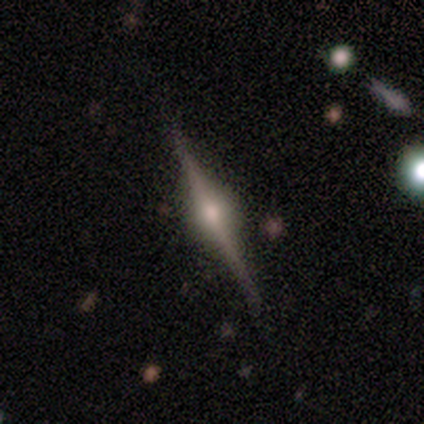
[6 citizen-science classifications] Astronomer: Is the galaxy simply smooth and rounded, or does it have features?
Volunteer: featured or disk — 83%.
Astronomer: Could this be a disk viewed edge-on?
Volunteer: yes — 100%.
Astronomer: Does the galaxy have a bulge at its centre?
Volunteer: rounded — 100%.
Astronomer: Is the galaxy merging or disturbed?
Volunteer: none — 100%.